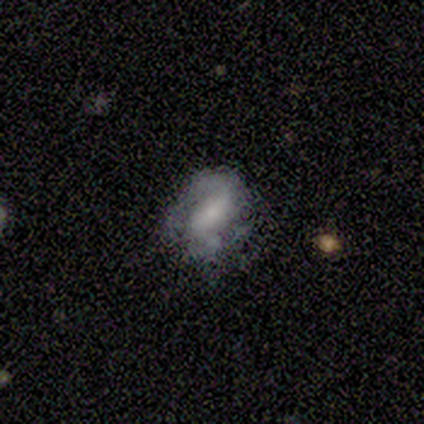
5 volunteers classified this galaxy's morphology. smooth 60%, featured or disk 40%, star or artifact 0%. Down the decision tree: how rounded — round (33%, tied with in between and cigar-shaped); merging — minor disturbance (40%, tied with major disturbance).